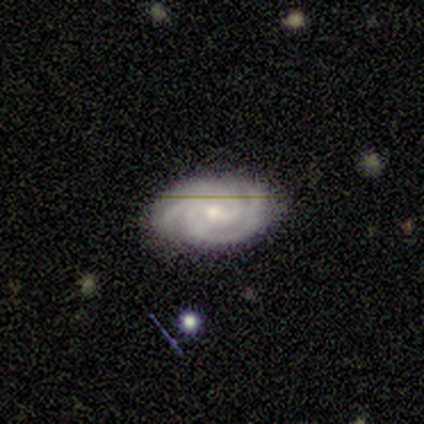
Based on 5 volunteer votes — Q: Smooth or featured?
A: featured or disk (80%); runner-up: smooth (20%)
Q: Edge-on disk?
A: no (100%)
Q: Bar?
A: weak (50%); tied with: no (50%)
Q: Spiral arms?
A: yes (100%)
Q: Spiral winding?
A: tight (75%); runner-up: medium (25%)
Q: Spiral arm count?
A: 3 (50%); runner-up: 2 (25%)
Q: Bulge size?
A: moderate (75%); runner-up: small (25%)
Q: Merging?
A: none (80%); runner-up: minor disturbance (20%)